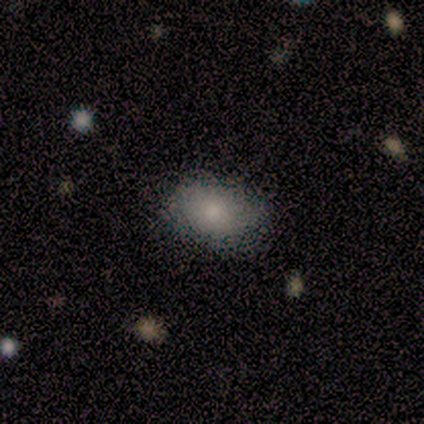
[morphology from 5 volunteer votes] Smooth or featured? smooth (80%)
How rounded? round (50%, tied with in between)
Merging? none (80%)